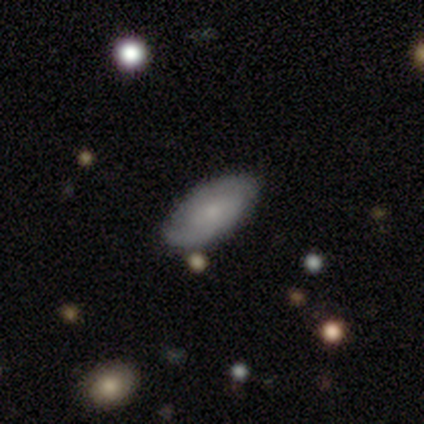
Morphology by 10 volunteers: This is clearly a smooth galaxy (80%). How rounded: clearly in between (100%). Merging: clearly none (89%).